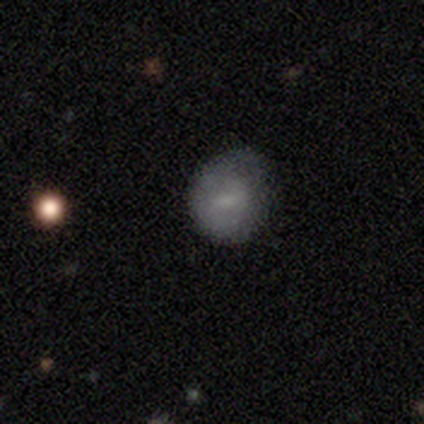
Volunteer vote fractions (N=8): Smooth or featured: featured or disk — 50% (smooth — 38%)
Edge-on disk: no — 100%
Bar: weak — 50% (tied with no — 50%)
Spiral arms: yes — 50% (tied with no — 50%)
Spiral winding: tight — 50% (tied with medium — 50%)
Spiral arm count: can't tell — 100%
Bulge size: small — 100%
Merging: minor disturbance — 43% (none — 29%)